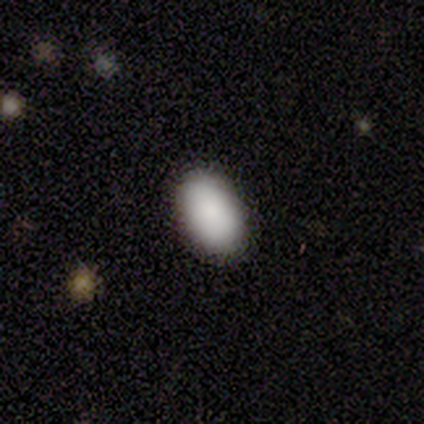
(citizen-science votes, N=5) This is clearly a smooth galaxy (80%). How rounded: clearly in between (100%). Merging: clearly none (100%).